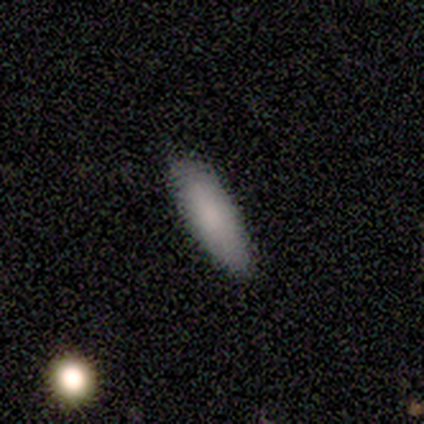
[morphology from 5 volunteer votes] A smooth galaxy with no disk features (60%) that is in between round and cigar-shaped (67%).

Vote fractions:
- Smooth or featured? smooth: 60% / star or artifact: 40% / featured or disk: 0%
- How rounded? in between: 67% / cigar-shaped: 33% / round: 0%
- Merging? none: 100% / minor disturbance: 0% / major disturbance: 0% / merger: 0%